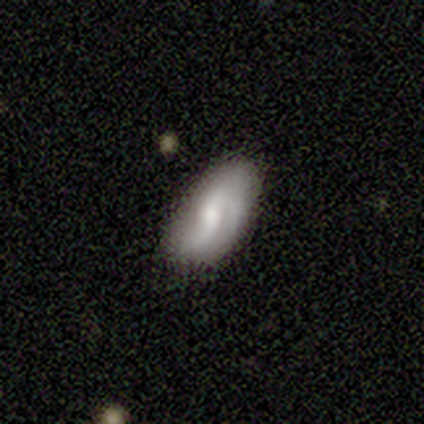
smooth-or-featured: smooth: 40% (tied) | featured or disk: 40% (tied) | star or artifact: 20%
  how-rounded: in between: 100% | round: 0% | cigar-shaped: 0%
  merging: none: 100% | minor disturbance: 0% | major disturbance: 0% | merger: 0%